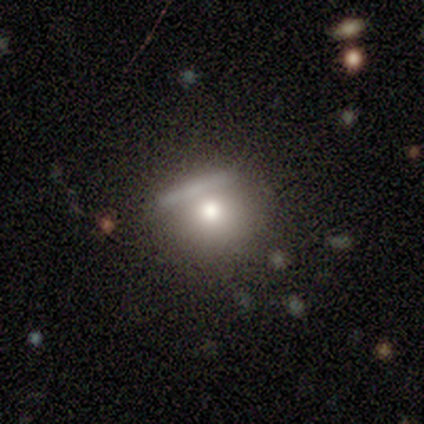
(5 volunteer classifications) smooth-or-featured: smooth: 60% | featured or disk: 40% | star or artifact: 0%
  how-rounded: round: 100% | in between: 0% | cigar-shaped: 0%
  merging: none: 80% | major disturbance: 20% | minor disturbance: 0% | merger: 0%